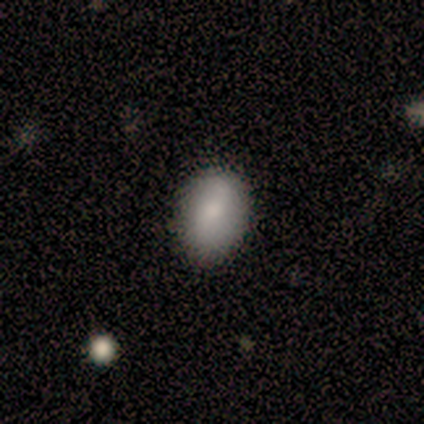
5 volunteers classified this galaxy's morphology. A smooth galaxy with no disk features (80%) that is in between round and cigar-shaped (100%). Merging: none (75%).